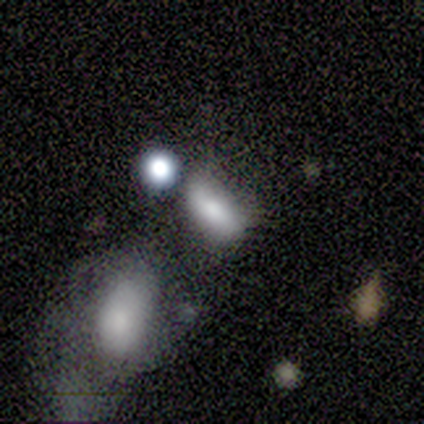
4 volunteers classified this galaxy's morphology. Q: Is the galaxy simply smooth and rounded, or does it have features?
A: smooth — 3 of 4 (75%).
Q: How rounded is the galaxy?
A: in between — 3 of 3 (100%).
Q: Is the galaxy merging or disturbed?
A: none — 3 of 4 (75%).